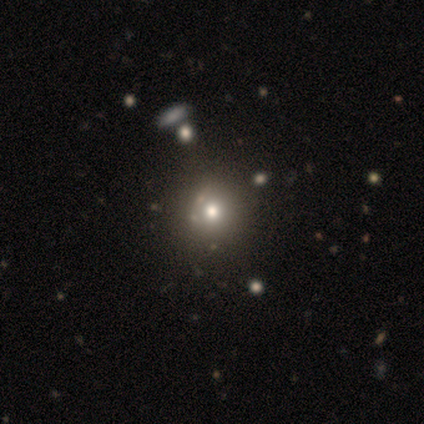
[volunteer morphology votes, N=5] smooth-or-featured: smooth: 40% (tied) | star or artifact: 40% (tied) | featured or disk: 20%
  how-rounded: round: 100% | in between: 0% | cigar-shaped: 0%
  merging: none: 100% | minor disturbance: 0% | major disturbance: 0% | merger: 0%